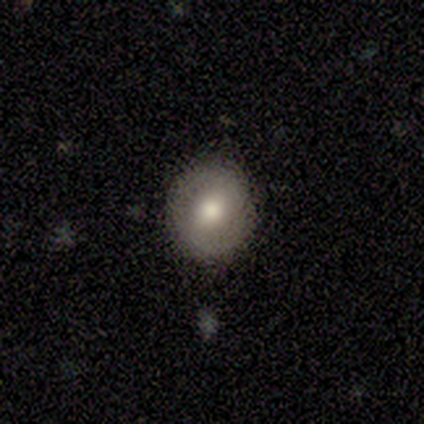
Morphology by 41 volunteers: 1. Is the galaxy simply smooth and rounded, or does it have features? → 61% smooth, 34% featured or disk, 5% star or artifact.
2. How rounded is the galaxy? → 88% round, 12% in between, 0% cigar-shaped.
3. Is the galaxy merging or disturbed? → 82% none, 10% minor disturbance, 5% major disturbance, 3% merger.